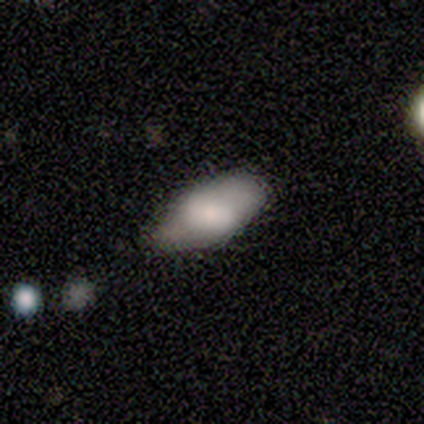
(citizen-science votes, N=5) A smooth galaxy with no disk features (60%) that is in between round and cigar-shaped (100%).

Vote fractions:
- Smooth or featured? smooth: 60% / featured or disk: 20% / star or artifact: 20%
- How rounded? in between: 100% / round: 0% / cigar-shaped: 0%
- Merging? none: 50% (tied) / minor disturbance: 50% (tied) / major disturbance: 0% / merger: 0%